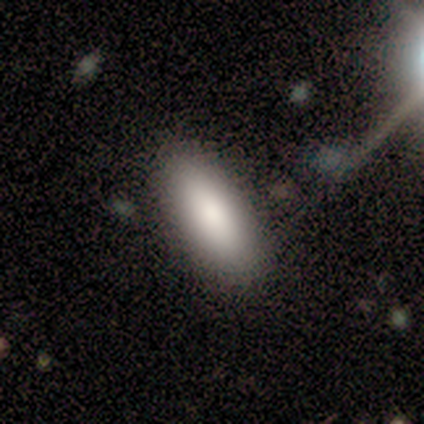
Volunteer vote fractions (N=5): Overall: smooth (80%). How rounded: in between (75%). Merging: none (60%; minor disturbance 20%).